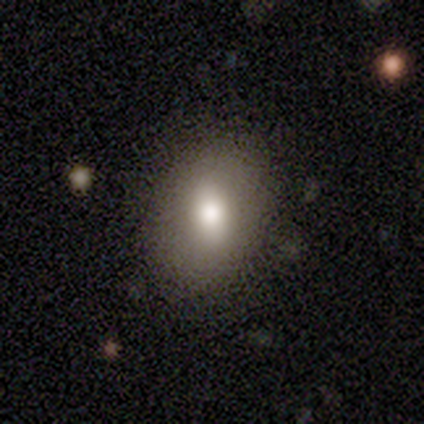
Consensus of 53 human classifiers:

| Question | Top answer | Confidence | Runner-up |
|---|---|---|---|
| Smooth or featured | smooth | 66% | featured or disk (28%) |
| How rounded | in between | 83% | round (17%) |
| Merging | none | 88% | minor disturbance (8%) |